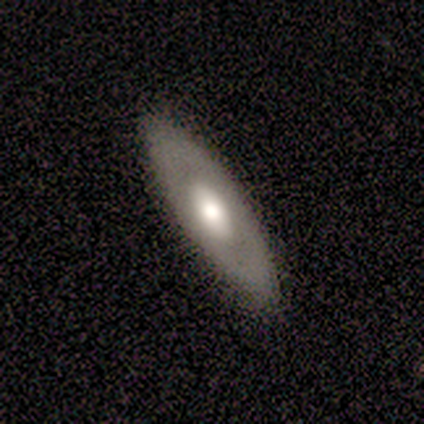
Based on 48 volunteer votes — This appears to be a featured or disk galaxy (58%) with no bar (88%), no spiral arms (88%) and a moderate central bulge (62%). Merging: none (83%).